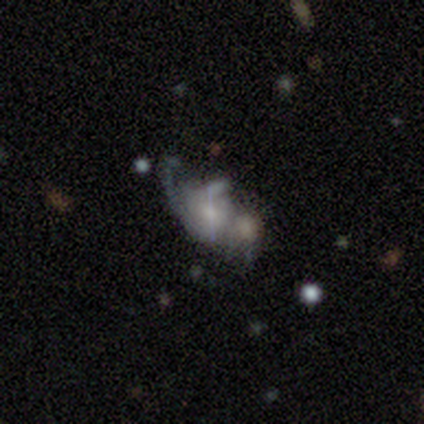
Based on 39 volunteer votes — Volunteers were most divided on "merging": merger: 43%, minor disturbance: 29%, none: 17%, major disturbance: 11%. More confident: edge-on disk — no (100%); spiral arms — yes (81%); smooth or featured — featured or disk (67%); spiral winding — loose (62%); bulge size — small (62%); spiral arm count — 1 (57%); bar — no (54%).